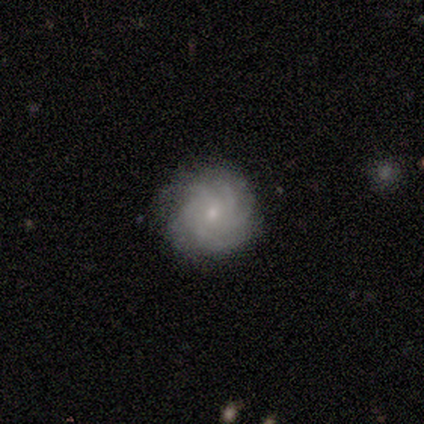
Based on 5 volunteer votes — This appears to be a featured or disk galaxy (80%) with no bar (75%), more than 4 (100%) tight (75%) spiral arms (100%) and a small central bulge (75%). Merging: none (100%).